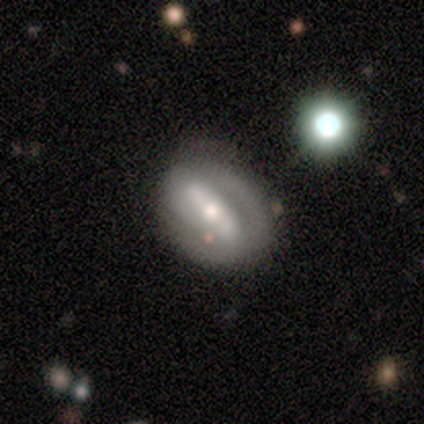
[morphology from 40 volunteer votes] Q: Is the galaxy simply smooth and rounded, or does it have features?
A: featured or disk — 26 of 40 (65%).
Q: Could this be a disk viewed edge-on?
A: no — 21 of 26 (81%).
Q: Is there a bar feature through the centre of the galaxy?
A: strong — 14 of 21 (67%).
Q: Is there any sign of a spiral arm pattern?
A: yes — 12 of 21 (57%).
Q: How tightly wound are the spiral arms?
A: tight — 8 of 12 (67%).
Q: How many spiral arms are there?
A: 2 — 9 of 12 (75%).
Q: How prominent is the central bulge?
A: moderate — 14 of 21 (67%).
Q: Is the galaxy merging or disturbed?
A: none — 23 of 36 (64%).